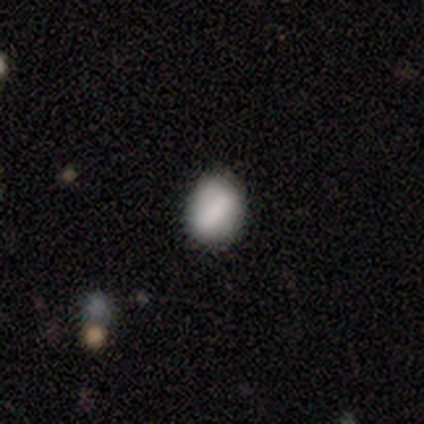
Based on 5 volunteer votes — smooth-or-featured: smooth: 80% | featured or disk: 20% | star or artifact: 0%
  how-rounded: in between: 100% | round: 0% | cigar-shaped: 0%
  merging: none: 80% | minor disturbance: 20% | major disturbance: 0% | merger: 0%